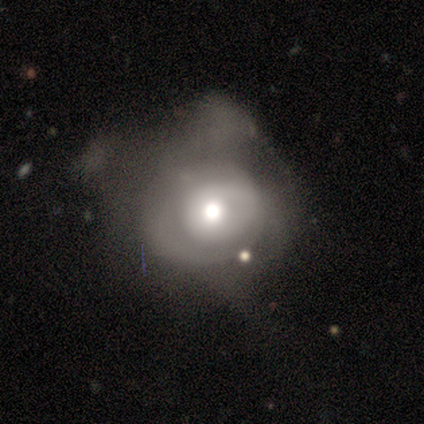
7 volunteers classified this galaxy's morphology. smooth-or-featured: smooth: 57% | featured or disk: 43% | star or artifact: 0%
  how-rounded: round: 100% | in between: 0% | cigar-shaped: 0%
  merging: major disturbance: 57% | minor disturbance: 29% | merger: 14% | none: 0%